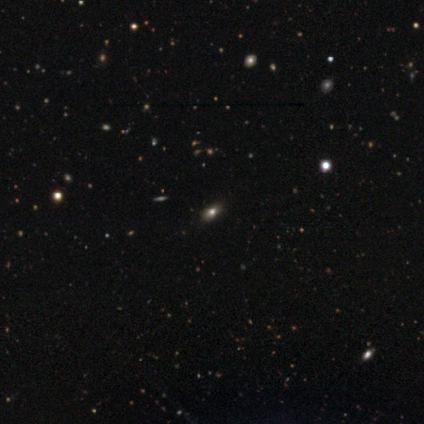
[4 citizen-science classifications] Volunteers were most divided on "smooth or featured": star or artifact: 50%, smooth: 25%, featured or disk: 25%.